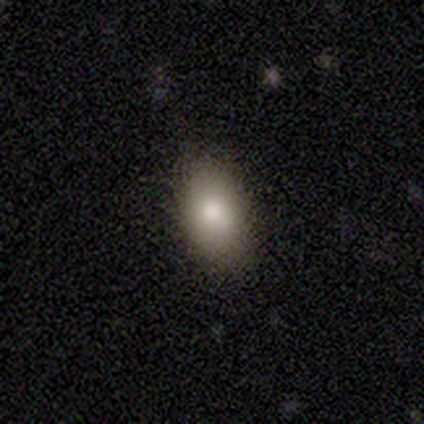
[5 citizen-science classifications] Morphology: type=smooth (80%); roundness=in between (100%); merging=none (100%).